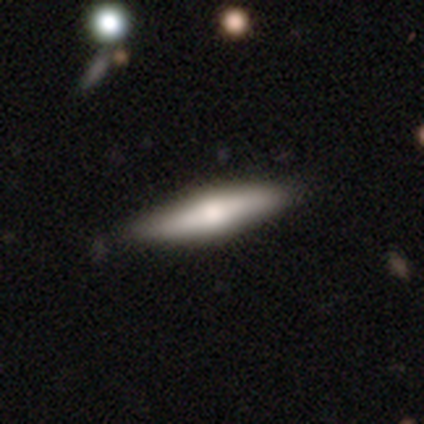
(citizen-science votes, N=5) Q: Smooth or featured?
A: featured or disk (80%); runner-up: smooth (20%)
Q: Edge-on disk?
A: yes (75%); runner-up: no (25%)
Q: Edge-on bulge?
A: rounded (100%)
Q: Merging?
A: none (100%)